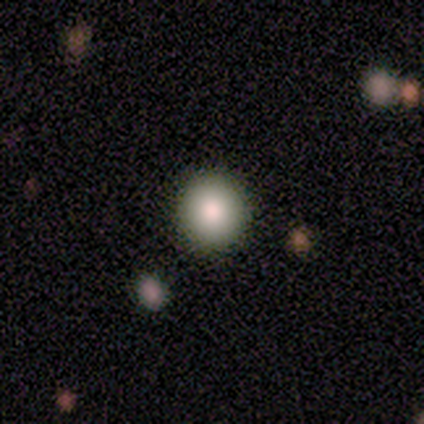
This is likely a smooth galaxy (67%). How rounded: clearly round (100%). Merging: possibly none (50%, tied with major disturbance).